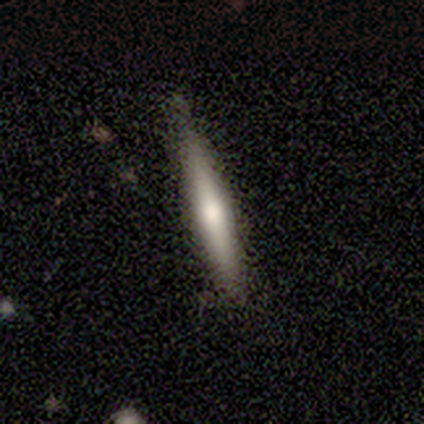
featured or disk 80%, smooth 20%, star or artifact 0%. Down the decision tree: edge-on disk — yes (100%); edge-on bulge — rounded (75%); merging — none (60%).